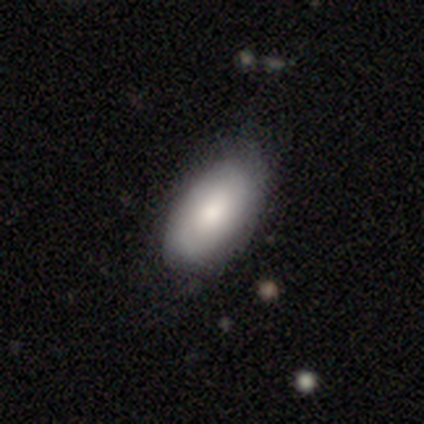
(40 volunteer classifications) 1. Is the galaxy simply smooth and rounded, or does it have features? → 80% smooth, 15% featured or disk, 5% star or artifact.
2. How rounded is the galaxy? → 100% in between, 0% round, 0% cigar-shaped.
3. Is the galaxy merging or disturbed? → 63% none, 24% minor disturbance, 11% major disturbance, 3% merger.